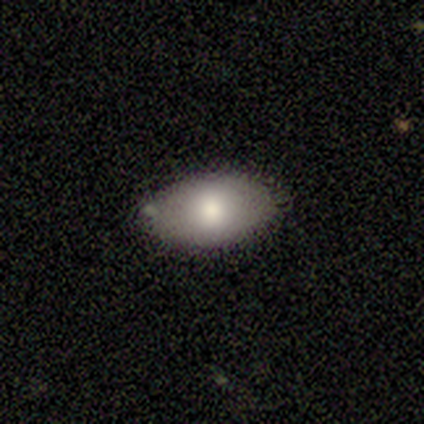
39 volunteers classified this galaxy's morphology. A smooth galaxy with no disk features (72%) that is in between round and cigar-shaped (96%). Merging: none (86%).